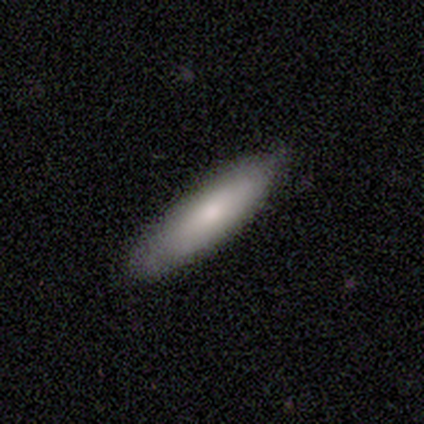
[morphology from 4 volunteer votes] Smooth or featured? smooth (75%)
How rounded? in between (67%)
Merging? none (75%)